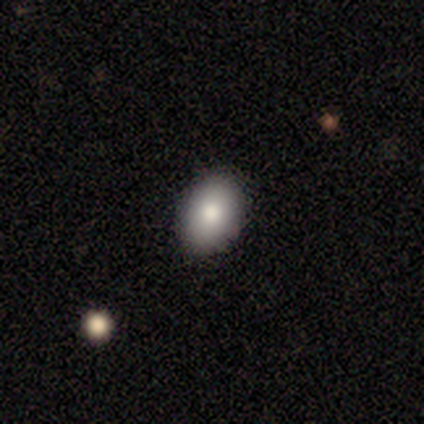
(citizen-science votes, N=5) Q: Smooth or featured?
A: smooth (100%)
Q: How rounded?
A: in between (80%); runner-up: round (20%)
Q: Merging?
A: none (80%); runner-up: minor disturbance (20%)